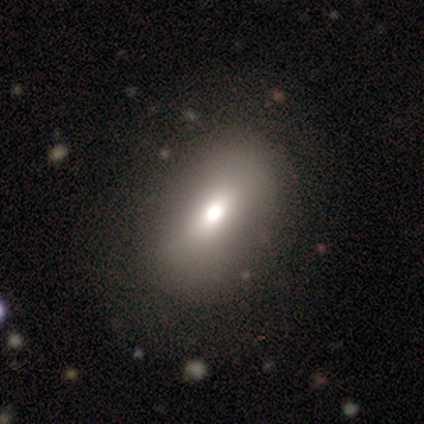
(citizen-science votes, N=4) This is likely a smooth galaxy (75%). How rounded: likely in between (67%). Merging: possibly none (50%, tied with minor disturbance).